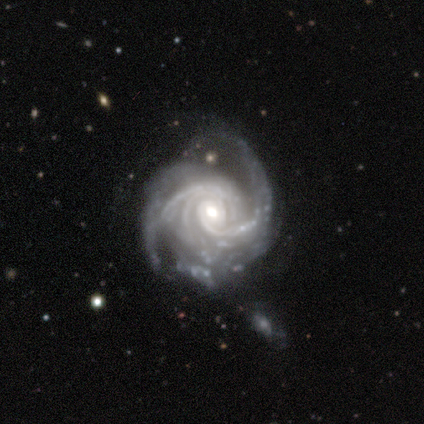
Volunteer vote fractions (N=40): smooth-or-featured: featured or disk: 100% | smooth: 0% | star or artifact: 0%
  disk-edge-on: no: 100% | yes: 0%
    bar: no: 78% | weak: 12% | strong: 10%
    has-spiral-arms: yes: 100% | no: 0%
      spiral-winding: tight: 60% | medium: 28% | loose: 12%
      spiral-arm-count: 2: 25% | 3: 22% | more than 4: 20% | can't tell: 18% | 4: 15% | 1: 0%
    bulge-size: moderate: 70% | small: 22% | large: 8% | dominant: 0% | none: 0%
  merging: none: 45% | minor disturbance: 28% | major disturbance: 28% | merger: 0%